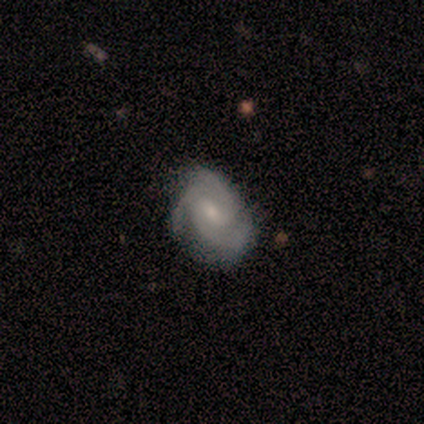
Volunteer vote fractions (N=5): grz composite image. It shows a featured or disk galaxy (60%) with a weak bar (100%), 3 (67%) tight (100%) spiral arms (100%) and a small central bulge (67%). Merging: none (60%).